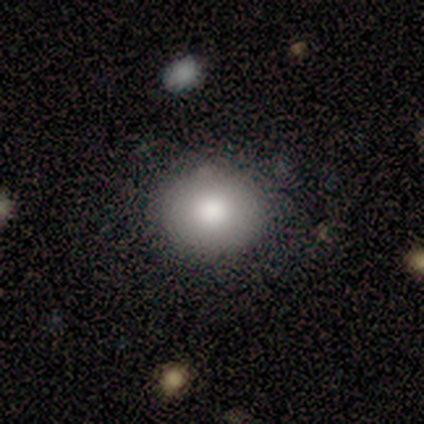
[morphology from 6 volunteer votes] This is clearly a smooth galaxy (100%). How rounded: clearly round (83%). Merging: clearly none (100%).